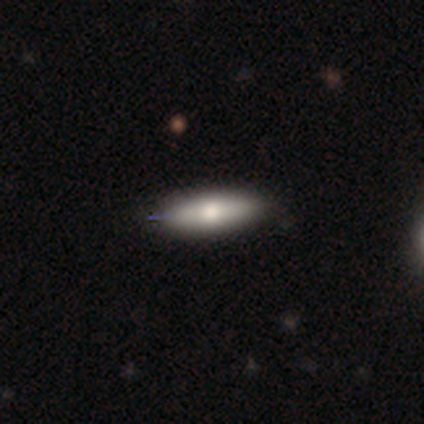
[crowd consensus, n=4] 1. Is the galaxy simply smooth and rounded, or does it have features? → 75% smooth, 25% featured or disk, 0% star or artifact.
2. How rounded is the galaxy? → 67% in between, 33% cigar-shaped, 0% round.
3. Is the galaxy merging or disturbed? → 100% none, 0% minor disturbance, 0% major disturbance, 0% merger.